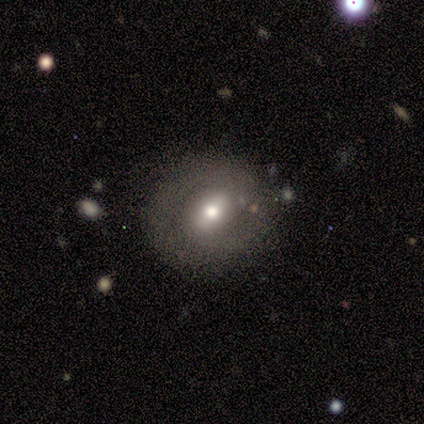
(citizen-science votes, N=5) A featured or disk galaxy (80%) with a weak bar (50%), no spiral arms (75%) and a small central bulge (50%). Merging: none (80%).